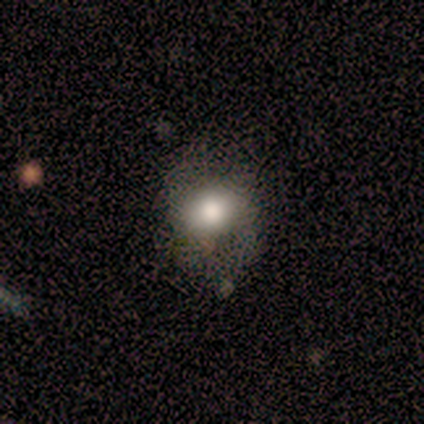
smooth 88%, star or artifact 12%, featured or disk 0%. Down the decision tree: how rounded — round (71%); merging — none (57%).